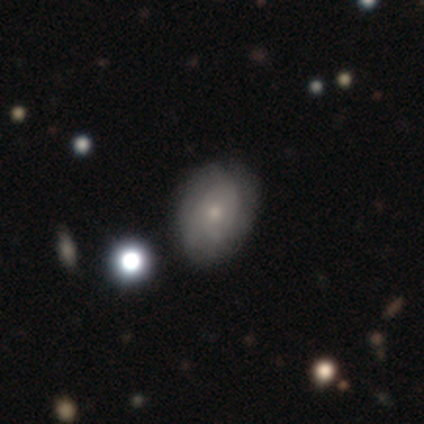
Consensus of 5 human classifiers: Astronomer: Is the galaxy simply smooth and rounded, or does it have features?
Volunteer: smooth — 60% (runner-up: featured or disk, 40%).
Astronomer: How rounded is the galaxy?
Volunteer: in between — 100%.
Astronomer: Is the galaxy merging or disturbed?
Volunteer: none — 80%.